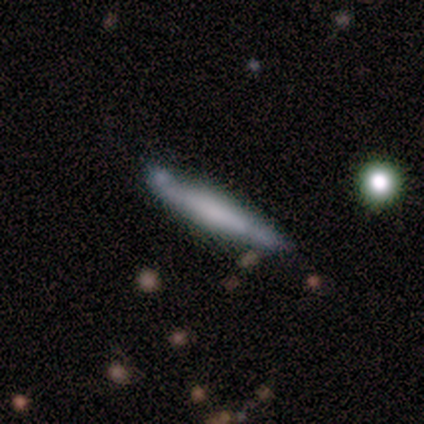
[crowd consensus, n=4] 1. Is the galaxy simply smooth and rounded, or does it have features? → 75% smooth, 25% featured or disk, 0% star or artifact.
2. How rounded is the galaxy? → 100% cigar-shaped, 0% round, 0% in between.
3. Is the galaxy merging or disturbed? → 50% none (tied), 50% minor disturbance (tied), 0% major disturbance, 0% merger.